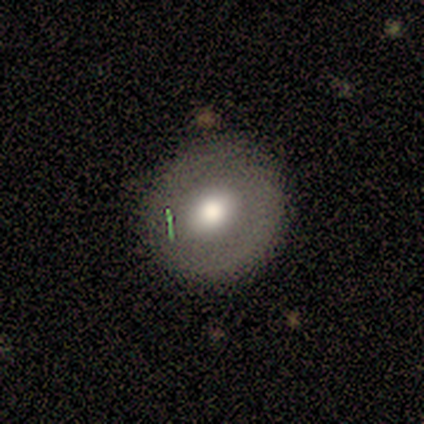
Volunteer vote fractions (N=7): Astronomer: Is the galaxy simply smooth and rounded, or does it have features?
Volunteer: smooth — 57%.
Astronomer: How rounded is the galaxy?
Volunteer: round — 100%.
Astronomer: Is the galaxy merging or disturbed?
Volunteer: none — 83%.